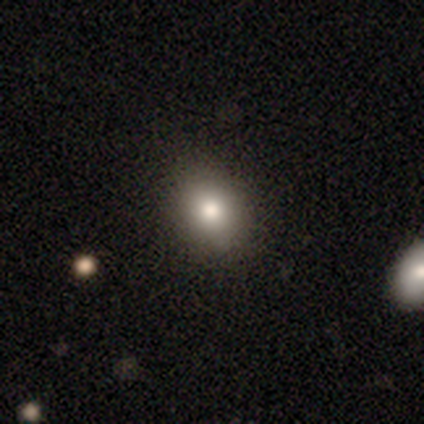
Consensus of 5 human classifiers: Volunteers were most divided on "smooth or featured": star or artifact: 60%, smooth: 40%, featured or disk: 0%.